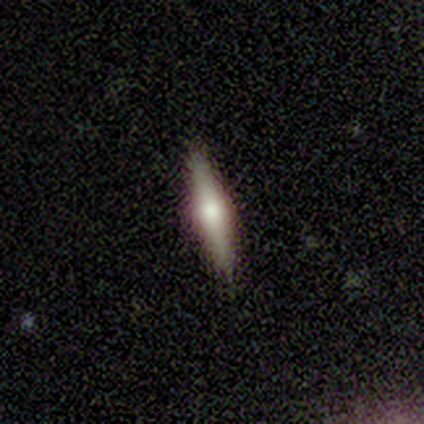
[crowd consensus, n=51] A featured or disk galaxy (69%) viewed edge-on (100%) with a rounded central bulge (91%). Merging: none (92%).